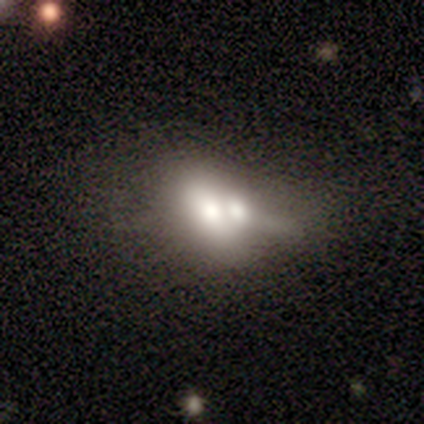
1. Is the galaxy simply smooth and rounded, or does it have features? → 60% smooth, 40% featured or disk, 0% star or artifact.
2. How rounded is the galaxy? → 67% in between, 33% round, 0% cigar-shaped.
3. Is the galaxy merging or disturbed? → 60% merger, 40% major disturbance, 0% none, 0% minor disturbance.